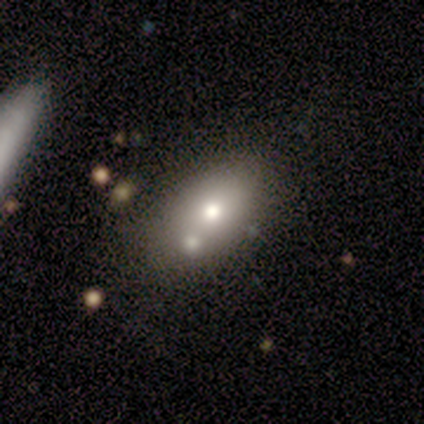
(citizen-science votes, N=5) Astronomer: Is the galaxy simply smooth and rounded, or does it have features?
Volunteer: smooth — 60% (runner-up: featured or disk, 40%).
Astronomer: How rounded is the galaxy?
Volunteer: in between — 100%.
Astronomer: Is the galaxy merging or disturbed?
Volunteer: none — 100%.